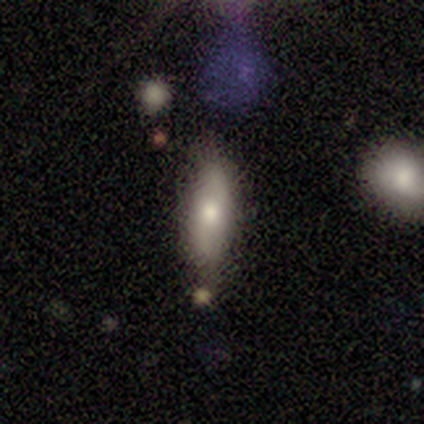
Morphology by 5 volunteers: smooth-or-featured: smooth: 100% | featured or disk: 0% | star or artifact: 0%
  how-rounded: in between: 60% | cigar-shaped: 40% | round: 0%
  merging: none: 80% | minor disturbance: 20% | major disturbance: 0% | merger: 0%